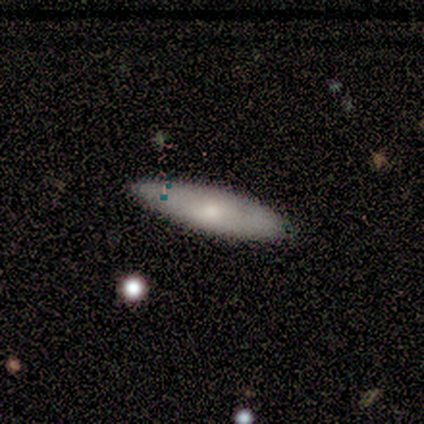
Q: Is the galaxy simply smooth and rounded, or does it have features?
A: smooth — 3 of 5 (60%).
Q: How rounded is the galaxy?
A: in between — 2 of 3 (67%).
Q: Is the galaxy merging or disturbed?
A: minor disturbance — 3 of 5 (60%).